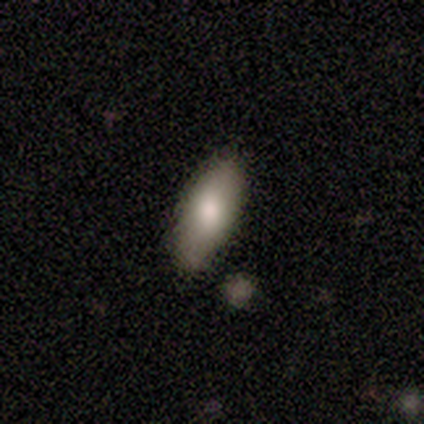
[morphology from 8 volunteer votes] This is likely a smooth galaxy (75%). How rounded: clearly in between (100%). Merging: clearly none (86%).